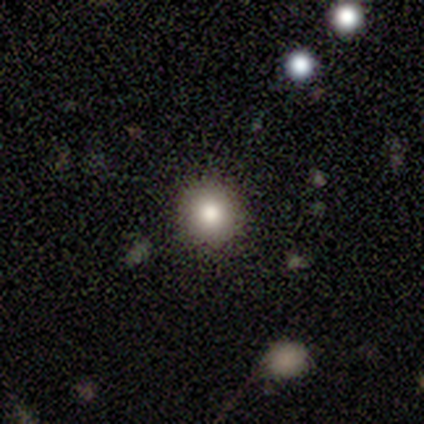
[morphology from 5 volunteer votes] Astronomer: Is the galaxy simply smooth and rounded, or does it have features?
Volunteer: smooth — 100%.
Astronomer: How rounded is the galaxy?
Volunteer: round — 80%.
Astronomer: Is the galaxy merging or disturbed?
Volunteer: none — 60% (runner-up: minor disturbance, 40%).